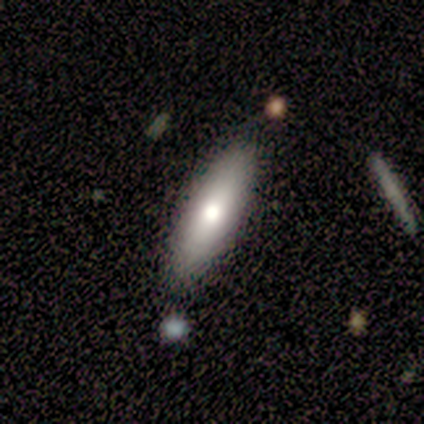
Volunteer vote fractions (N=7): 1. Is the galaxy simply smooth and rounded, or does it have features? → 71% smooth, 29% featured or disk, 0% star or artifact.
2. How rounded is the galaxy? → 80% cigar-shaped, 20% in between, 0% round.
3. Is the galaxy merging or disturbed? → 43% none, 29% minor disturbance, 14% major disturbance, 14% merger.